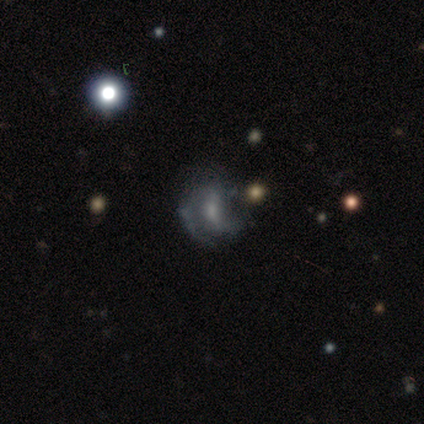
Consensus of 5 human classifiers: smooth-or-featured: featured or disk: 80% | smooth: 20% | star or artifact: 0%
  disk-edge-on: no: 100% | yes: 0%
    bar: strong: 50% | weak: 25% | no: 25%
    has-spiral-arms: yes: 100% | no: 0%
      spiral-winding: tight: 50% | medium: 25% | loose: 25%
      spiral-arm-count: 2: 100% | 1: 0% | 3: 0% | 4: 0% | more than 4: 0% | can't tell: 0%
    bulge-size: moderate: 75% | small: 25% | dominant: 0% | large: 0% | none: 0%
  merging: minor disturbance: 60% | none: 40% | major disturbance: 0% | merger: 0%